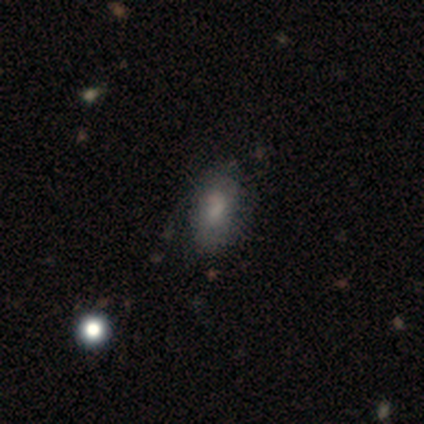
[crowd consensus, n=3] Volunteers were most divided on "smooth or featured": smooth: 67%, featured or disk: 33%, star or artifact: 0%. More confident: how rounded — in between (100%); merging — none (67%).